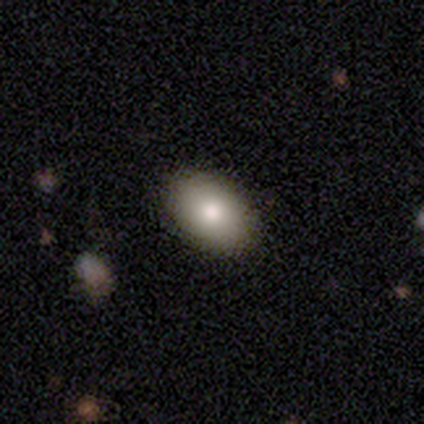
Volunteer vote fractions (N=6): Smooth or featured: smooth — 83% (featured or disk — 17%)
How rounded: in between — 80% (round — 20%)
Merging: none — 100%